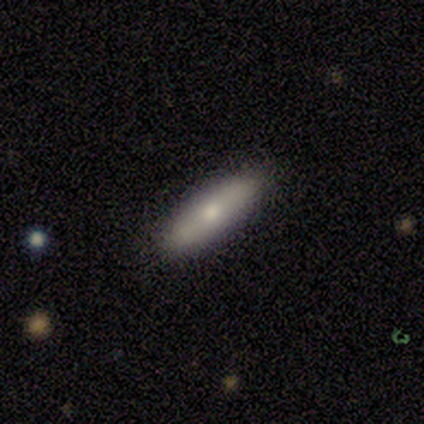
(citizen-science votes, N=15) A smooth galaxy with no disk features (87%) that is cigar-shaped (62%). Merging: none (80%).